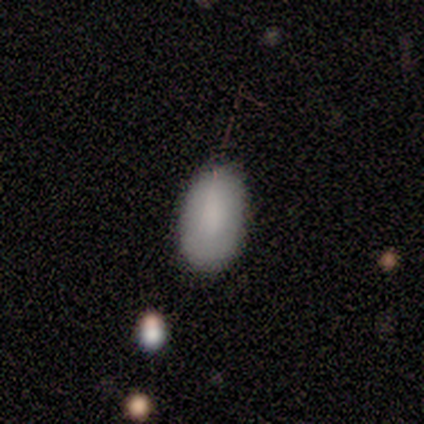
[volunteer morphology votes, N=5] smooth_or_featured: smooth (p=1.00)
how_rounded: in between (p=1.00)
merging: none (p=0.80) [alt: minor disturbance p=0.20]